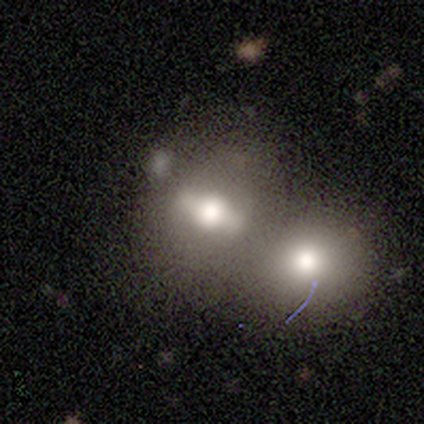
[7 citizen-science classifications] Volunteers were most divided on "smooth or featured": featured or disk: 57%, smooth: 43%, star or artifact: 0%. More confident: edge-on bulge — rounded (100%); edge-on disk — yes (75%); merging — merger (57%).